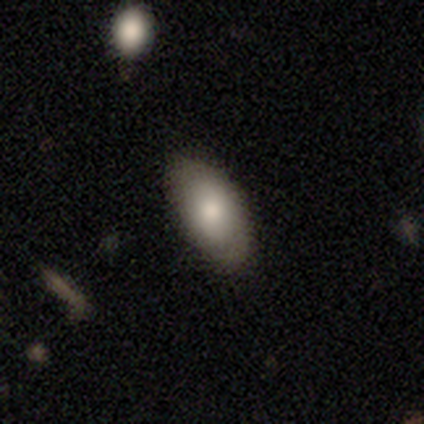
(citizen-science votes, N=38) Overall: smooth (76%). How rounded: in between (97%). Merging: none (86%).